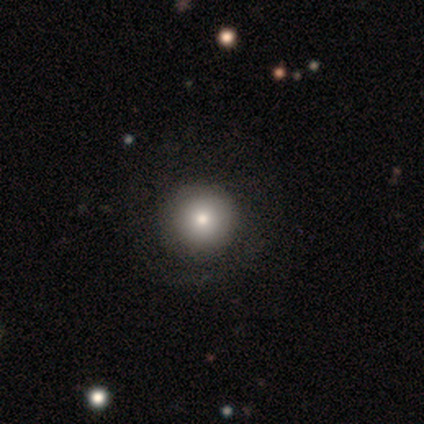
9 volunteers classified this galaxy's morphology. Overall: smooth (78%). How rounded: round (100%). Merging: none (100%).